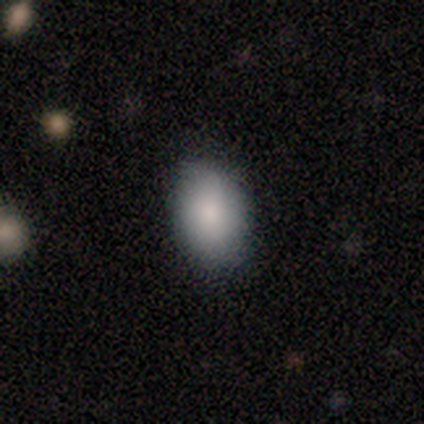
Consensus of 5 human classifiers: Smooth or featured? smooth (100%)
How rounded? in between (80%)
Merging? none (100%)